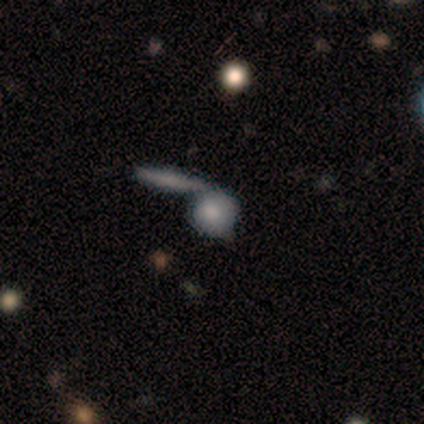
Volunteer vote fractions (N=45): Q: Smooth or featured?
A: smooth (64%); runner-up: featured or disk (31%)
Q: How rounded?
A: round (83%); runner-up: in between (14%)
Q: Merging?
A: merger (63%); runner-up: none (23%)